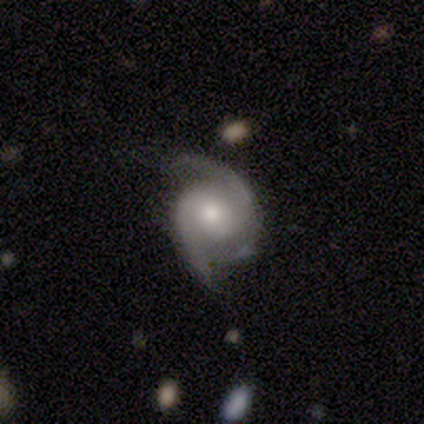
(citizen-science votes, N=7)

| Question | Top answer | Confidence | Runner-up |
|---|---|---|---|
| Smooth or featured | featured or disk | 86% | smooth (14%) |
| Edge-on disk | no | 100% | — |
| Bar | no | 67% | weak (33%) |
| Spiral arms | yes | 100% | — |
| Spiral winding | medium | 83% | loose (17%) |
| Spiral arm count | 2 | 100% | — |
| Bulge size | moderate | 67% | small (33%) |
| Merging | minor disturbance | 57% | none (29%) |